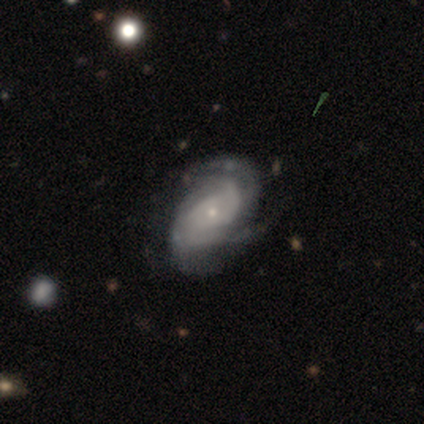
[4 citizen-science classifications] Smooth or featured?
  - featured or disk: 75% *
  - smooth: 25%
  - star or artifact: 0%
Edge-on disk?
  - no: 100% *
  - yes: 0%
Bar?
  - no: 67% *
  - weak: 33%
  - strong: 0%
Spiral arms?
  - yes: 100% *
  - no: 0%
Spiral winding?
  - tight: 33% * (tied)
  - medium: 33% * (tied)
  - loose: 33% * (tied)
Spiral arm count?
  - can't tell: 67% *
  - 2: 33%
  - 1: 0%
  - 3: 0%
  - 4: 0%
  - more than 4: 0%
Bulge size?
  - small: 100% *
  - dominant: 0%
  - large: 0%
  - moderate: 0%
  - none: 0%
Merging?
  - none: 100% *
  - minor disturbance: 0%
  - major disturbance: 0%
  - merger: 0%